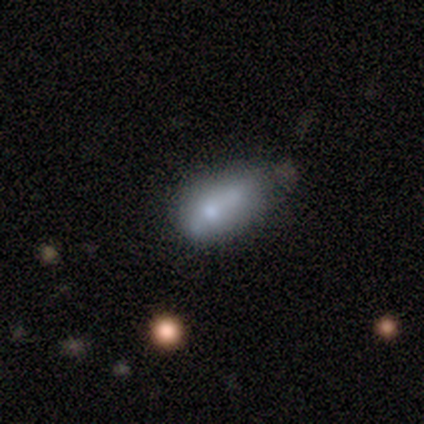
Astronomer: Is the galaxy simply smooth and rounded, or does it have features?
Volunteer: smooth — 51% (runner-up: featured or disk, 41%).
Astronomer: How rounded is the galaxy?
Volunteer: in between — 65%.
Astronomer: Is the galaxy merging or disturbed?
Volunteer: none — 36%, tied with minor disturbance at 36%.